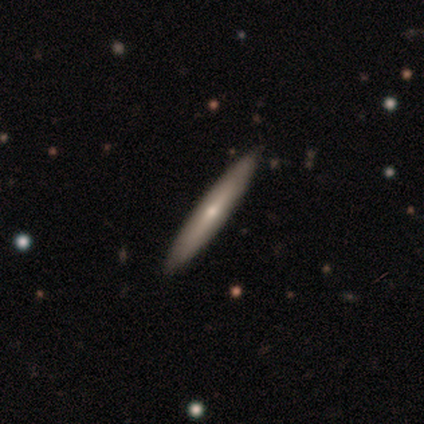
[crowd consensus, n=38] Smooth or featured: smooth — 55% (featured or disk — 45%)
How rounded: cigar-shaped — 95% (in between — 5%)
Merging: none — 89% (minor disturbance — 8%)